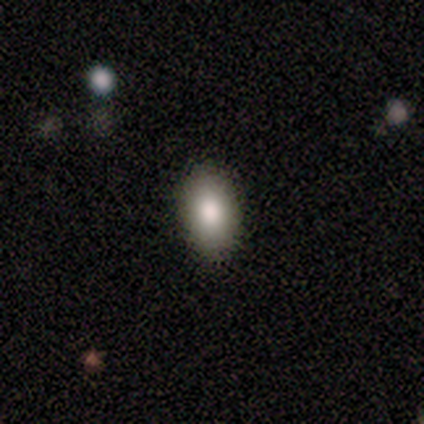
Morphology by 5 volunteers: Q: Smooth or featured?
A: smooth (100%)
Q: How rounded?
A: in between (80%); runner-up: cigar-shaped (20%)
Q: Merging?
A: none (100%)